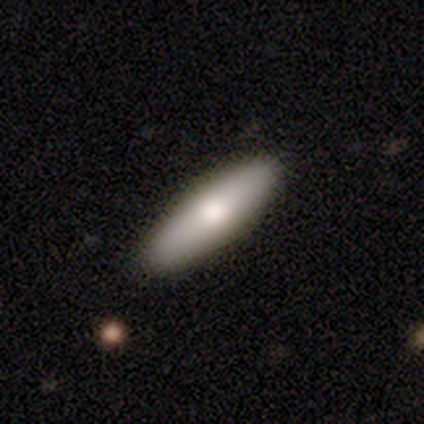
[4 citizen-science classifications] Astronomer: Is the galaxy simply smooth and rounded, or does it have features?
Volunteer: smooth — 50%.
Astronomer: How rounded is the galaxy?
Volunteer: in between — 50%, tied with cigar-shaped at 50%.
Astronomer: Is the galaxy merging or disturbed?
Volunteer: none — 100%.